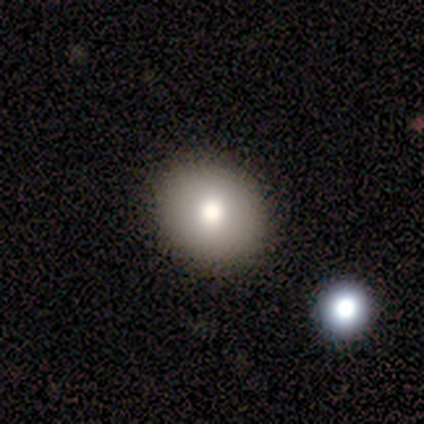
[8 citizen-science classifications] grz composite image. It shows a smooth galaxy with no disk features (75%) that is round (67%). Merging: none (71%).